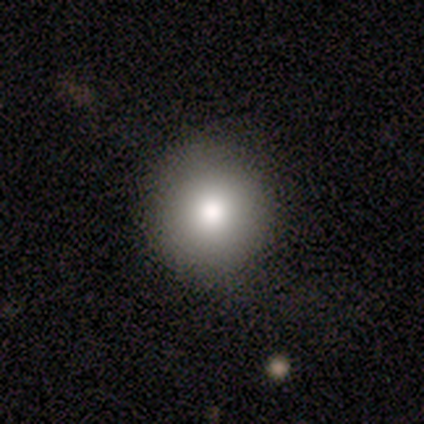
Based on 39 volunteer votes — smooth_or_featured: smooth (p=0.79) [alt: featured or disk p=0.13]
how_rounded: round (p=0.94) [alt: in between p=0.06]
merging: none (p=0.69) [alt: minor disturbance p=0.03]